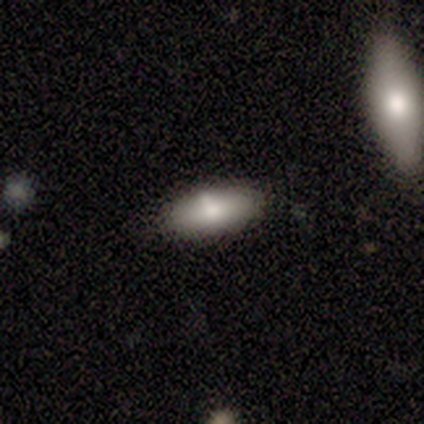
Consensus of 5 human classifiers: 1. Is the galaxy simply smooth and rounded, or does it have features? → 100% smooth, 0% featured or disk, 0% star or artifact.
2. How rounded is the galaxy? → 80% in between, 20% round, 0% cigar-shaped.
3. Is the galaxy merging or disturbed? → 80% none, 20% minor disturbance, 0% major disturbance, 0% merger.